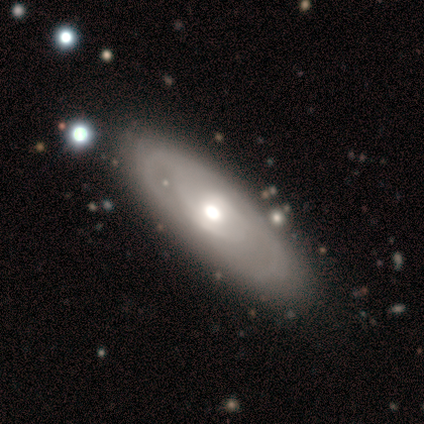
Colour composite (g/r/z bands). It shows a featured or disk galaxy (54%) with no bar (75%), tight (64%) spiral arms (69%) and a moderate central bulge (88%). Merging: none (79%).